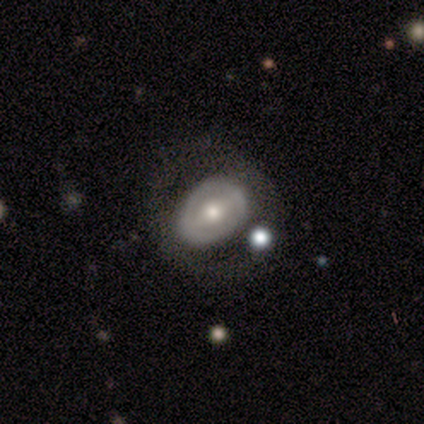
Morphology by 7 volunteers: Smooth or featured?
  - smooth: 57% *
  - featured or disk: 43%
  - star or artifact: 0%
How rounded?
  - round: 50% * (tied)
  - in between: 50% * (tied)
  - cigar-shaped: 0%
Merging?
  - none: 71% *
  - minor disturbance: 29%
  - major disturbance: 0%
  - merger: 0%